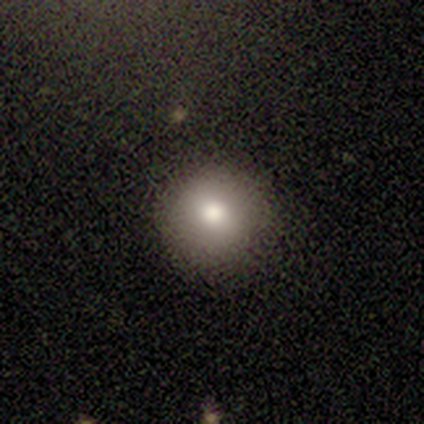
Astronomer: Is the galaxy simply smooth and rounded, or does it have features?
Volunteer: smooth — 60%.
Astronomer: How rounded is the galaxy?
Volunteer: round — 100%.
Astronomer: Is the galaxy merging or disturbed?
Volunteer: none — 75%.